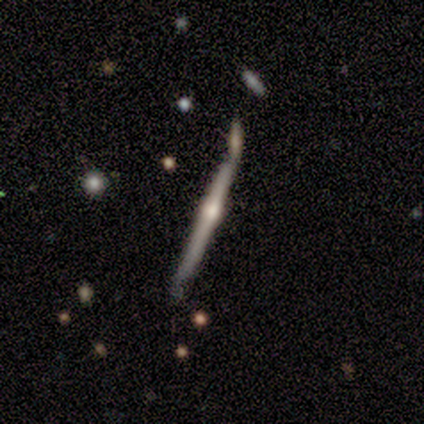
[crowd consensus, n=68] smooth_or_featured: featured or disk (p=0.84) [alt: smooth p=0.15]
disk_edge_on: yes (p=1.00)
edge_on_bulge: rounded (p=0.95) [alt: none p=0.04]
merging: none (p=0.46) [alt: merger p=0.33]